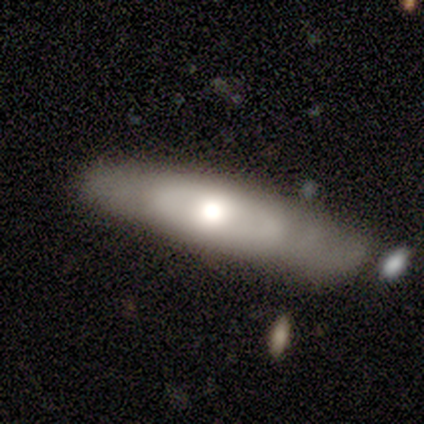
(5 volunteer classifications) A featured or disk galaxy (60%) viewed edge-on (67%) with a rounded central bulge (100%).

Vote fractions:
- Smooth or featured? featured or disk: 60% / smooth: 40% / star or artifact: 0%
- Edge-on disk? yes: 67% / no: 33%
- Edge-on bulge? rounded: 100% / boxy: 0% / none: 0%
- Merging? none: 60% / minor disturbance: 40% / major disturbance: 0% / merger: 0%